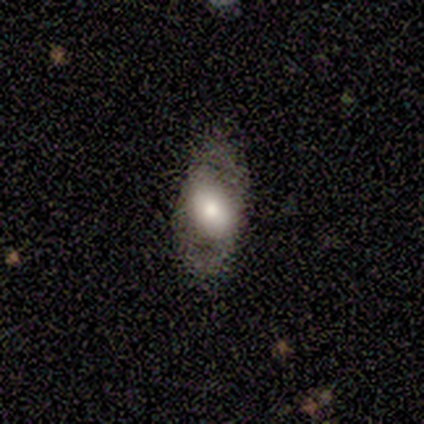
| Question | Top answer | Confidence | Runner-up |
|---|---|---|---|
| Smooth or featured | smooth | 60% | featured or disk (40%) |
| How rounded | in between | 100% | — |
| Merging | none | 80% | minor disturbance (20%) |